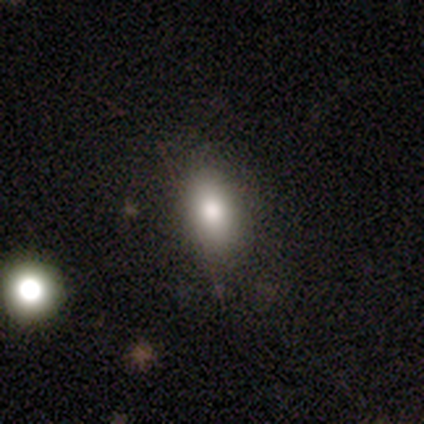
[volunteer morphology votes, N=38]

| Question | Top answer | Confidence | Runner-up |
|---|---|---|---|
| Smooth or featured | smooth | 68% | featured or disk (16%) |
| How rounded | in between | 81% | cigar-shaped (12%) |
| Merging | none | 81% | minor disturbance (12%) |